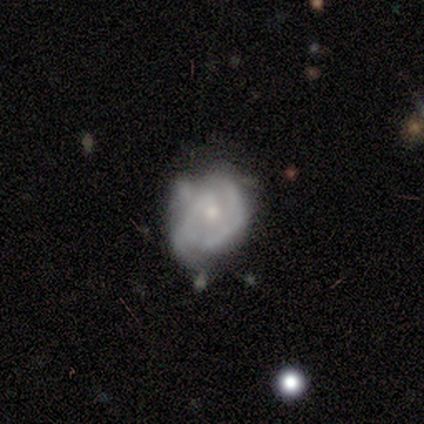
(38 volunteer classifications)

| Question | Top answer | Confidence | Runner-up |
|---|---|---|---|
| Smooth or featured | featured or disk | 71% | smooth (21%) |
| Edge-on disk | no | 100% | — |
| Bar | no | 81% | weak (19%) |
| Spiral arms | yes | 85% | no (15%) |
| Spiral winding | tight | 43% | loose (30%) |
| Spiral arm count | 2 | 43% | can't tell (22%) |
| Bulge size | small | 67% | moderate (22%) |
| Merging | none | 51% | minor disturbance (31%) |